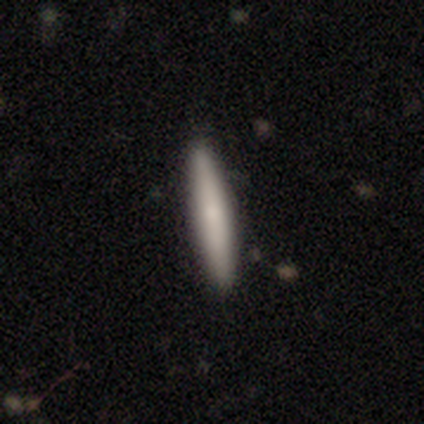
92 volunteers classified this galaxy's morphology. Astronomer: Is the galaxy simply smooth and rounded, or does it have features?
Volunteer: smooth — 72%.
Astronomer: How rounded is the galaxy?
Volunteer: cigar-shaped — 92%.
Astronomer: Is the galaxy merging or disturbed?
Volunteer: none — 89%.